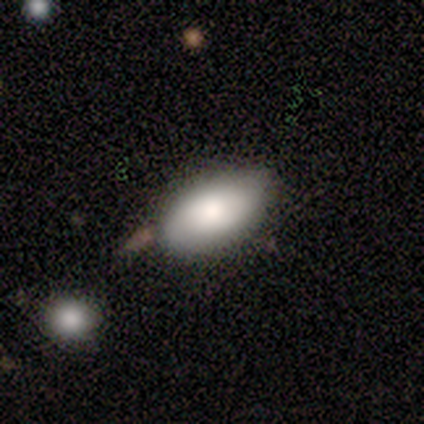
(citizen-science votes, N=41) A smooth galaxy with no disk features (78%) that is in between round and cigar-shaped (91%). Merging: none (80%).